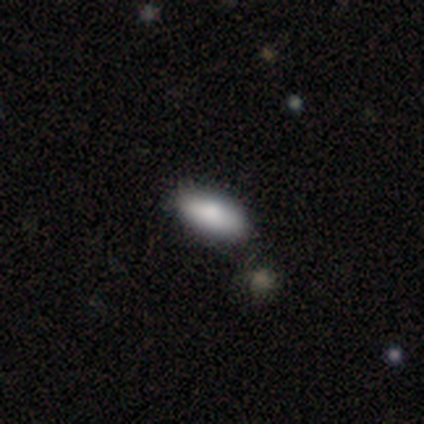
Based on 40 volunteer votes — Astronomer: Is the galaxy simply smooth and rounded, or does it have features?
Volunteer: smooth — 75%.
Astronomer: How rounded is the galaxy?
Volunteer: in between — 93%.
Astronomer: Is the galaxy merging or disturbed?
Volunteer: none — 51%.